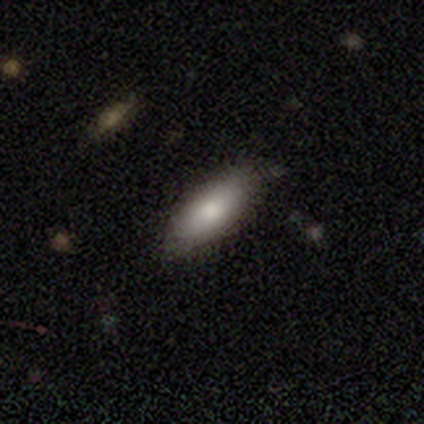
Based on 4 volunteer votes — smooth 75%, featured or disk 25%, star or artifact 0%. Down the decision tree: how rounded — in between (100%); merging — none (50%, tied with minor disturbance).